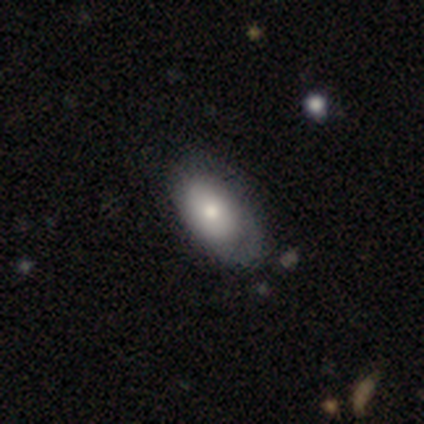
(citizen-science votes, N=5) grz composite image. It shows a smooth galaxy with no disk features (60%) that is in between round and cigar-shaped (100%). Merging: none (50%).